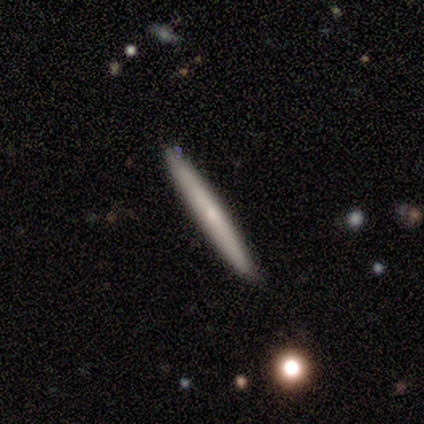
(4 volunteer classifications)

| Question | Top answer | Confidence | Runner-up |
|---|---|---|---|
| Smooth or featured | smooth | 50% | featured or disk (25%) |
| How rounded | cigar-shaped | 100% | — |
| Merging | none | 100% | — |